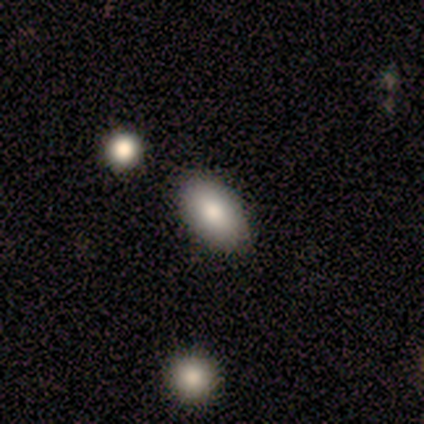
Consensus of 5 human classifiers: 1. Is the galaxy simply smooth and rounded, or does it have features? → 100% smooth, 0% featured or disk, 0% star or artifact.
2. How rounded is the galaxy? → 100% in between, 0% round, 0% cigar-shaped.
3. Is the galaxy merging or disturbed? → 80% none, 20% major disturbance, 0% minor disturbance, 0% merger.